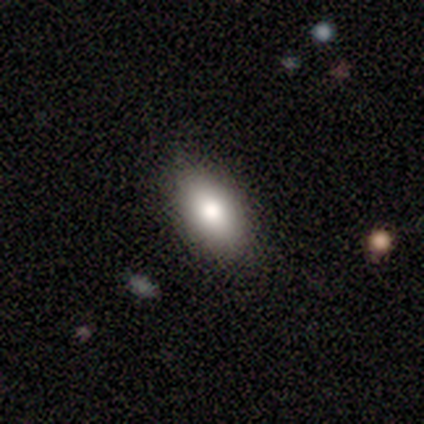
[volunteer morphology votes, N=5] Smooth or featured? 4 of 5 (80%) said smooth. How rounded? 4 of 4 (100%) said in between. Merging? 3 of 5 (60%) said none.